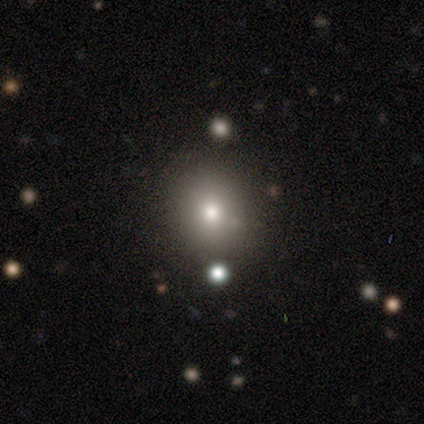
Smooth or featured? smooth (68%)
How rounded? round (62%)
Merging? none (58%)